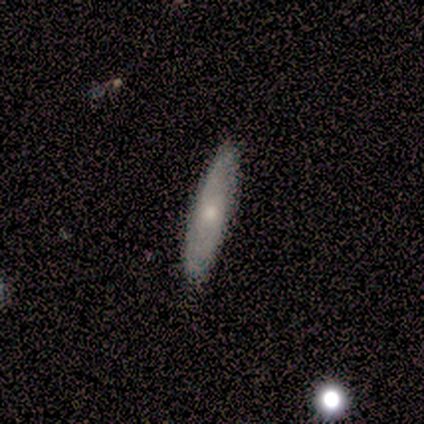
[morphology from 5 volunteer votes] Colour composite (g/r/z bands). It shows a smooth galaxy with no disk features (60%) that is cigar-shaped (67%). Merging: none (100%).